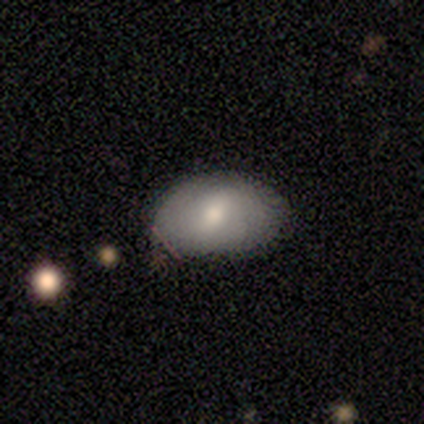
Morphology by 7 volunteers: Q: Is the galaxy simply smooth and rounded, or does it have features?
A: smooth — 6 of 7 (86%).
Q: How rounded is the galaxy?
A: in between — 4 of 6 (67%).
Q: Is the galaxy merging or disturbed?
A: none — 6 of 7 (86%).